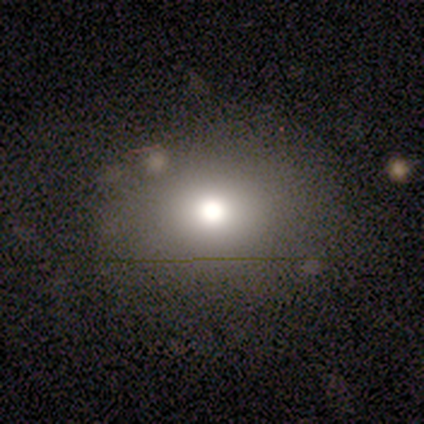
This appears to be a smooth galaxy with no disk features (55%) that is round (50%, tied with in between). Merging: none (67%).